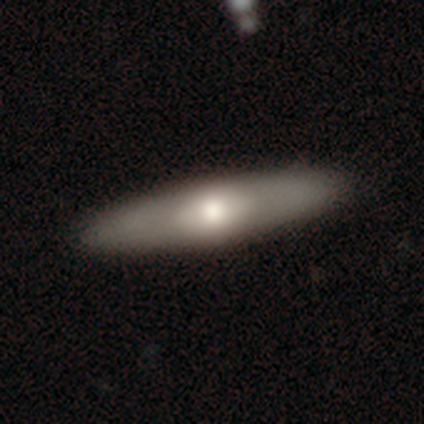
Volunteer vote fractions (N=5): Smooth or featured?
  - smooth: 60% *
  - featured or disk: 40%
  - star or artifact: 0%
How rounded?
  - in between: 67% *
  - cigar-shaped: 33%
  - round: 0%
Merging?
  - none: 100% *
  - minor disturbance: 0%
  - major disturbance: 0%
  - merger: 0%